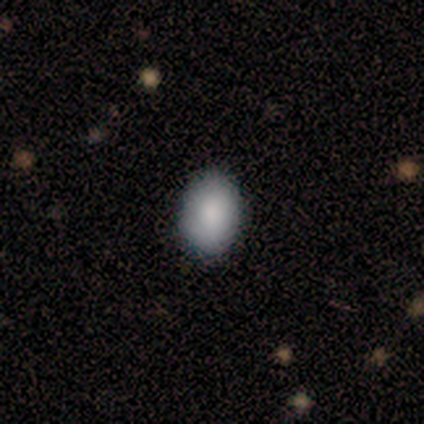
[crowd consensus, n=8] Q: Smooth or featured?
A: smooth (88%); runner-up: featured or disk (12%)
Q: How rounded?
A: in between (86%); runner-up: round (14%)
Q: Merging?
A: none (100%)